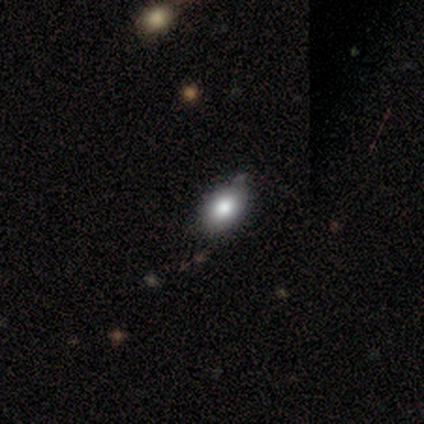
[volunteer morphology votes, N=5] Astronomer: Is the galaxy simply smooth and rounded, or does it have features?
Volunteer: smooth — 80%.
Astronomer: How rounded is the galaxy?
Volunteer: in between — 100%.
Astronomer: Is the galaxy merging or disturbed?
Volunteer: none — 60% (runner-up: minor disturbance, 40%).